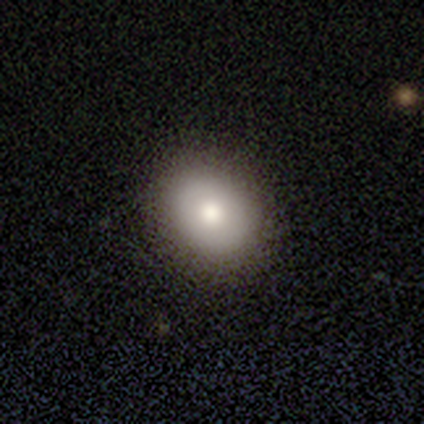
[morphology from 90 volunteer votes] This appears to be a smooth galaxy with no disk features (80%) that is round (61%). Merging: none (92%).